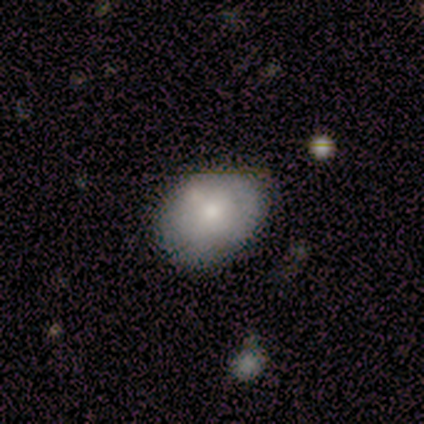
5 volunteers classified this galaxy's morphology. Overall: smooth (80%). How rounded: in between (75%). Merging: none (100%).